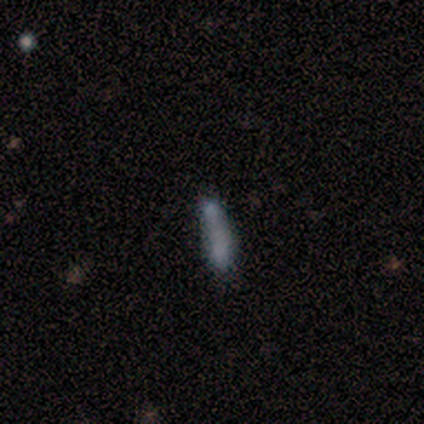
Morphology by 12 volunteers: This is likely a smooth galaxy (67%). How rounded: likely cigar-shaped (62%). Merging: likely merger (60%).